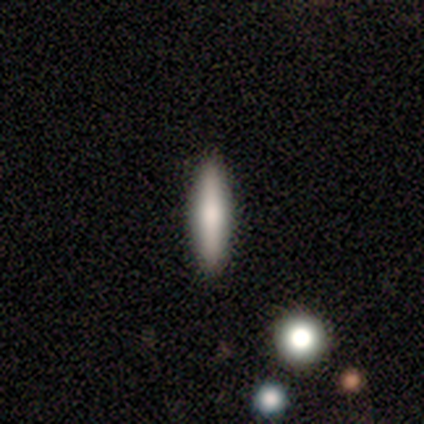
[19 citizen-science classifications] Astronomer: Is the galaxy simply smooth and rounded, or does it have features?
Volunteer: smooth — 79%.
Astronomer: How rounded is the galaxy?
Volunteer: cigar-shaped — 93%.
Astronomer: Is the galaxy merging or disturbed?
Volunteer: none — 100%.